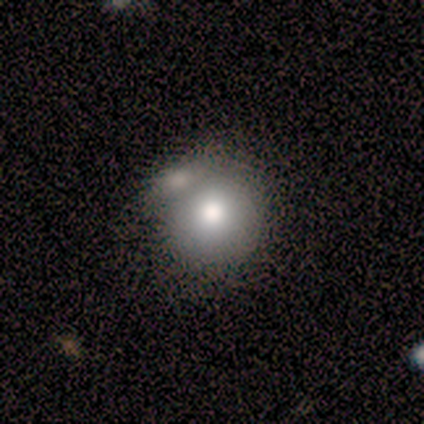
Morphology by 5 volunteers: A smooth galaxy with no disk features (80%) that is round (100%). Merging: none (40%, tied with merger).